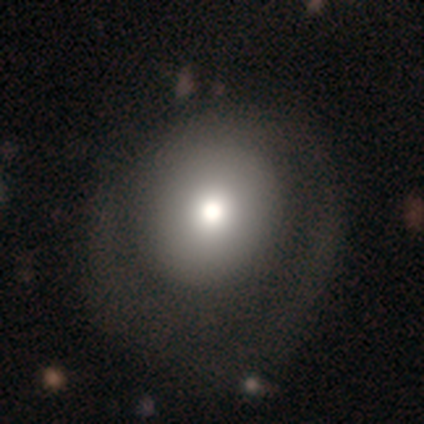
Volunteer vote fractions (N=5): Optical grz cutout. It shows a smooth galaxy with no disk features (100%) that is round (60%). Merging: major disturbance (80%).